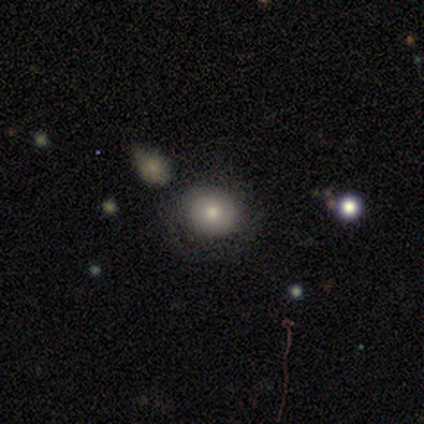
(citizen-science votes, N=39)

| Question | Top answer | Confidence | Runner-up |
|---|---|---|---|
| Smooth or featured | smooth | 74% | featured or disk (15%) |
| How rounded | round | 90% | in between (10%) |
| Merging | none | 74% | minor disturbance (11%) |